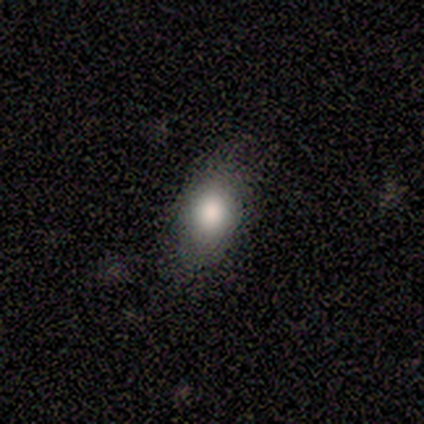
Morphology: type=smooth (75%); roundness=in between (100%); merging=none (75%).